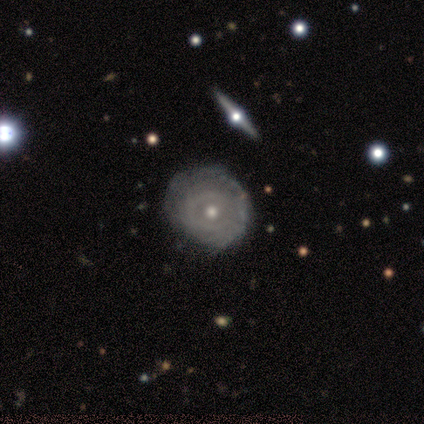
smooth_or_featured: featured or disk (p=0.85) [alt: smooth p=0.10]
disk_edge_on: no (p=0.94) [alt: yes p=0.06]
bar: no (p=0.81) [alt: weak p=0.16]
has_spiral_arms: yes (p=0.65) [alt: no p=0.35]
spiral_winding: tight (p=0.80) [alt: medium p=0.20]
spiral_arm_count: can't tell (p=0.50) [alt: more than 4 p=0.20]
bulge_size: moderate (p=0.45) [alt: small p=0.42]
merging: none (p=0.65) [alt: minor disturbance p=0.30]